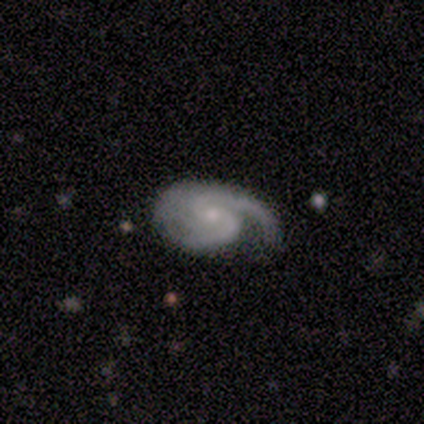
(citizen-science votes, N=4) A featured or disk galaxy (75%) with a weak bar (67%), 2 (67%) medium (67%) spiral arms (100%) and a small central bulge (100%).

Vote fractions:
- Smooth or featured? featured or disk: 75% / star or artifact: 25% / smooth: 0%
- Edge-on disk? no: 100% / yes: 0%
- Bar? weak: 67% / no: 33% / strong: 0%
- Spiral arms? yes: 100% / no: 0%
- Spiral winding? medium: 67% / loose: 33% / tight: 0%
- Spiral arm count? 2: 67% / can't tell: 33% / 1: 0% / 3: 0% / 4: 0% / more than 4: 0%
- Bulge size? small: 100% / dominant: 0% / large: 0% / moderate: 0% / none: 0%
- Merging? none: 33% (tied) / minor disturbance: 33% (tied) / major disturbance: 33% (tied) / merger: 0%